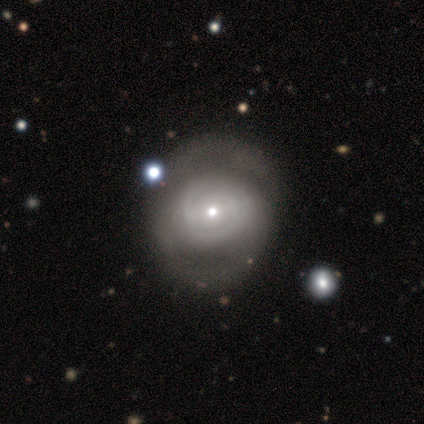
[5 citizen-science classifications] featured or disk 80%, smooth 20%, star or artifact 0%. Down the decision tree: edge-on disk — no (100%); bar — no (50%); spiral arms — yes (75%); spiral arm count — can't tell (67%); spiral winding — tight (100%); bulge size — small (75%); merging — none (80%).